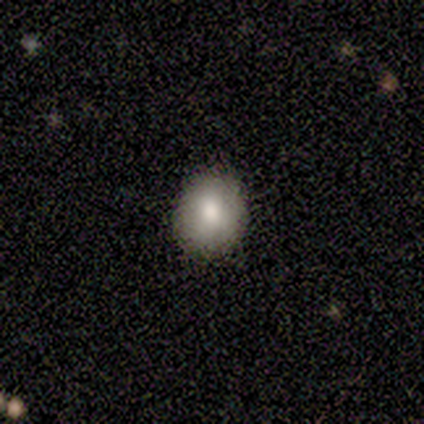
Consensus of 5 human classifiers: Q: Smooth or featured?
A: smooth (60%); runner-up: featured or disk (20%)
Q: How rounded?
A: round (100%)
Q: Merging?
A: none (100%)